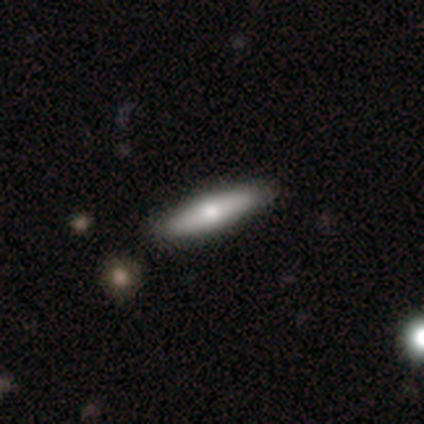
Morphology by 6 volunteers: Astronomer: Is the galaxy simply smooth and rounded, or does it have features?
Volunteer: smooth — 67%.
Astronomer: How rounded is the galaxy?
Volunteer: cigar-shaped — 75%.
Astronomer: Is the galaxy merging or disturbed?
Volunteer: none — 67%.